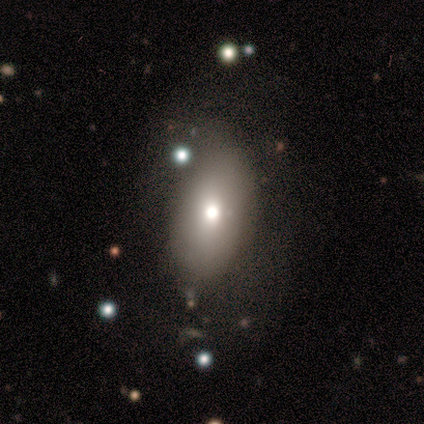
A smooth galaxy with no disk features (50%) that is round (67%).

Vote fractions:
- Smooth or featured? smooth: 50% / featured or disk: 33% / star or artifact: 17%
- How rounded? round: 67% / in between: 33% / cigar-shaped: 0%
- Merging? none: 60% / minor disturbance: 20% / major disturbance: 20% / merger: 0%